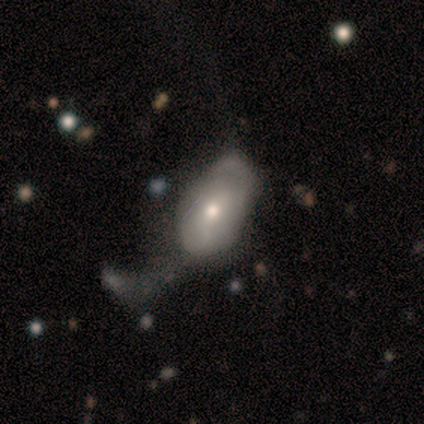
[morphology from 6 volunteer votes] A featured or disk galaxy (67%) with no bar (67%), tight (100%) spiral arms (67%) and a moderate central bulge (67%).

Vote fractions:
- Smooth or featured? featured or disk: 67% / smooth: 17% / star or artifact: 17%
- Edge-on disk? no: 75% / yes: 25%
- Bar? no: 67% / weak: 33% / strong: 0%
- Spiral arms? yes: 67% / no: 33%
- Spiral winding? tight: 100% / medium: 0% / loose: 0%
- Spiral arm count? can't tell: 100% / 1: 0% / 2: 0% / 3: 0% / 4: 0% / more than 4: 0%
- Bulge size? moderate: 67% / small: 33% / dominant: 0% / large: 0% / none: 0%
- Merging? major disturbance: 60% / none: 20% / minor disturbance: 20% / merger: 0%